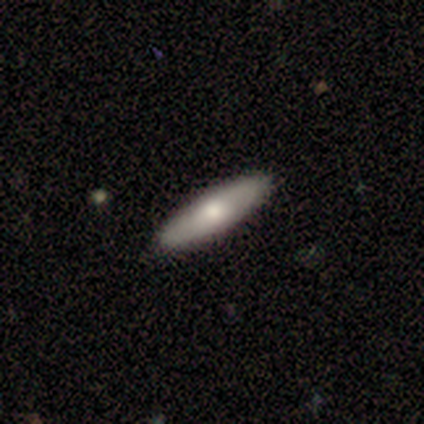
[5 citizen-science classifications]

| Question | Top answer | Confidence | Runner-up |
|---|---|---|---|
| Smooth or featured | featured or disk | 80% | smooth (20%) |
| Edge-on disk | yes | 75% | no (25%) |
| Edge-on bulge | rounded | 100% | — |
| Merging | none | 100% | — |